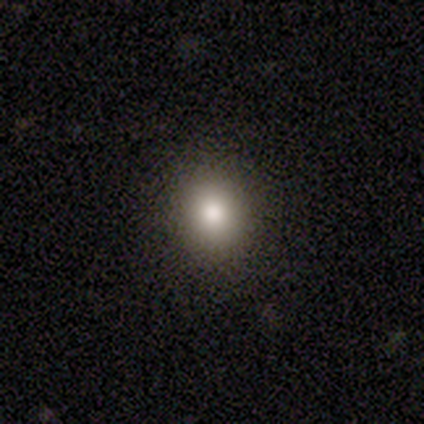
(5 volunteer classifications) Overall: smooth (80%). How rounded: round (100%). Merging: none (80%).